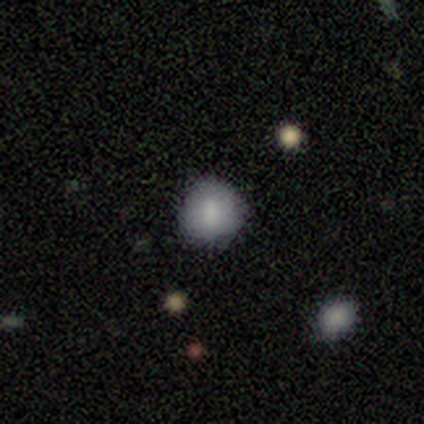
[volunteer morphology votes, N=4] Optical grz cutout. It shows a smooth galaxy with no disk features (75%) that is round (67%). Merging: none (67%).